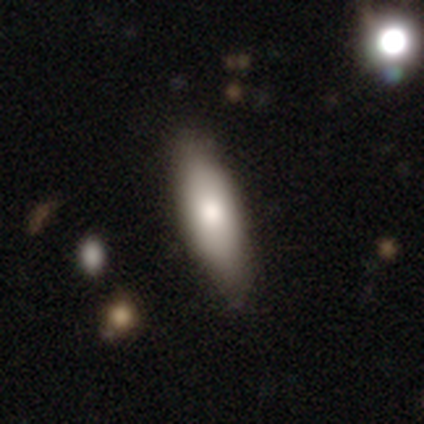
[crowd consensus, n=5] Smooth or featured? 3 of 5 (60%) said smooth. How rounded? 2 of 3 (67%) said in between. Merging? 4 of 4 (100%) said none.